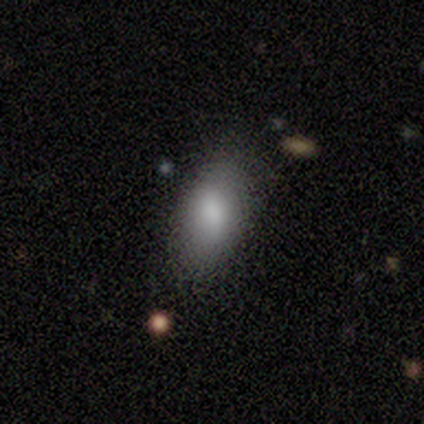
Overall: smooth (83%). How rounded: in between (100%). Merging: none (100%).